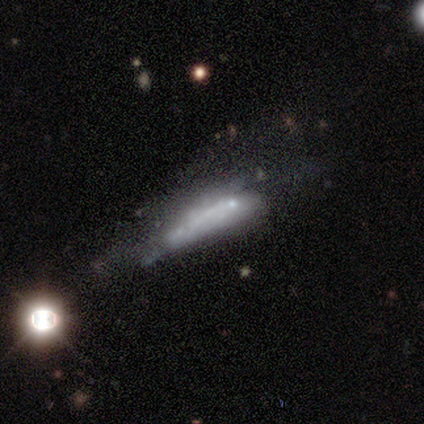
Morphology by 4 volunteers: Smooth or featured? smooth (75%)
How rounded? cigar-shaped (100%)
Merging? minor disturbance (50%)